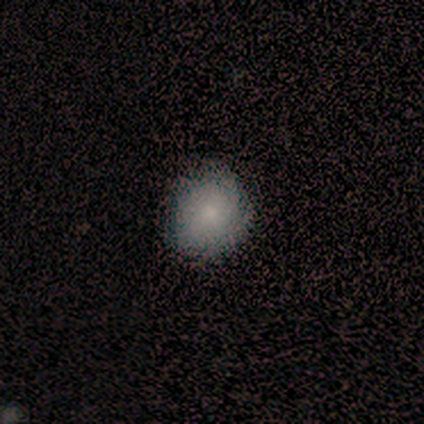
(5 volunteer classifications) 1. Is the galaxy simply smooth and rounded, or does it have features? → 60% smooth, 20% featured or disk, 20% star or artifact.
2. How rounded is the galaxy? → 100% round, 0% in between, 0% cigar-shaped.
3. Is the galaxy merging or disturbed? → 100% none, 0% minor disturbance, 0% major disturbance, 0% merger.